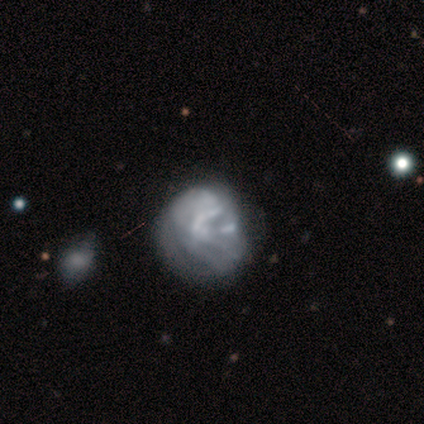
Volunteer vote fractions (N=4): This is possibly a smooth galaxy (50%, tied with featured or disk). How rounded: clearly in between (100%). Merging: possibly none (50%, tied with minor disturbance).